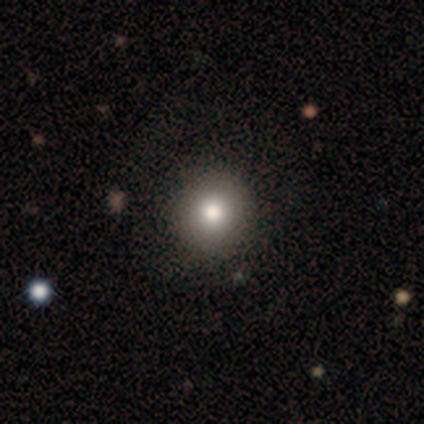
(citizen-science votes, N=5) A star or artifact, not a galaxy (60%).

Vote fractions:
- Smooth or featured? star or artifact: 60% / smooth: 40% / featured or disk: 0%